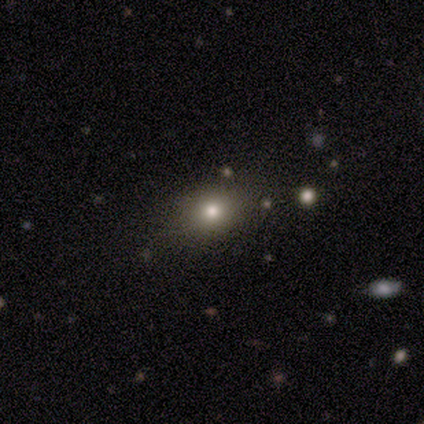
Morphology: type=smooth (60%); roundness=in between (67%); merging=none (75%).